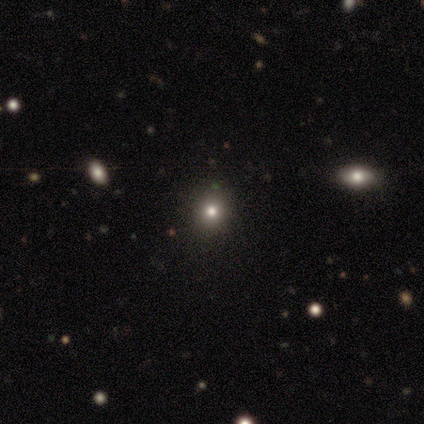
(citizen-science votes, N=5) Overall: smooth (60%; featured or disk 20%). How rounded: in between (67%; round 33%). Merging: none (100%).